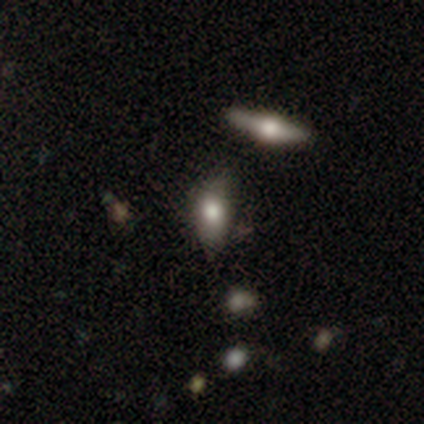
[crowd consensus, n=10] Smooth or featured? 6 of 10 (60%) said smooth. How rounded? 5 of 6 (83%) said in between. Merging? 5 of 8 (62%) said none.